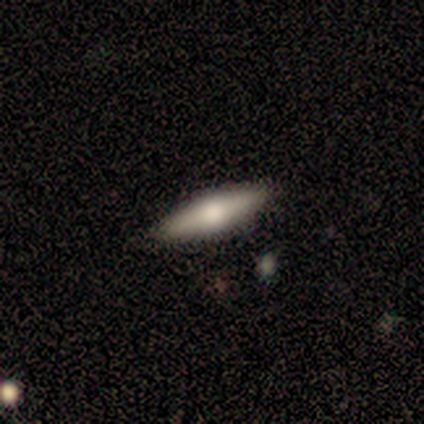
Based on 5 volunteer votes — Smooth or featured? 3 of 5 (60%) said smooth. How rounded? 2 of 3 (67%) said cigar-shaped. Merging? 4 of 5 (80%) said none.